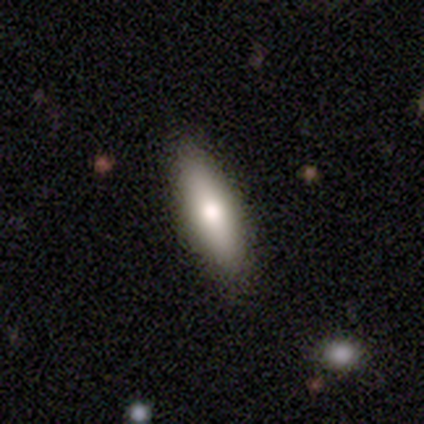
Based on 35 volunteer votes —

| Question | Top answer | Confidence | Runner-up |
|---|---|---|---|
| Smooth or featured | smooth | 54% | featured or disk (34%) |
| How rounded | in between | 58% | cigar-shaped (42%) |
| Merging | none | 94% | minor disturbance (6%) |